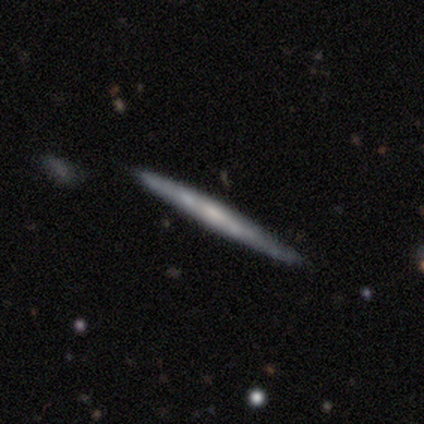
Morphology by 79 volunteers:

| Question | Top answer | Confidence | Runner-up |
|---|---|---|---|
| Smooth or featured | featured or disk | 70% | smooth (27%) |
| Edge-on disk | yes | 100% | — |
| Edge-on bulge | none | 65% | rounded (20%) |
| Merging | none | 42% | minor disturbance (8%) |